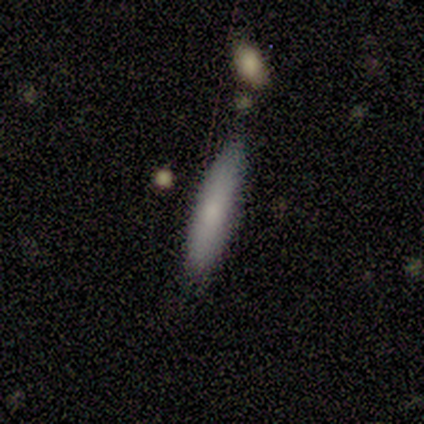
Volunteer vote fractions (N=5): Q: Smooth or featured?
A: smooth (60%); runner-up: featured or disk (20%)
Q: How rounded?
A: cigar-shaped (100%)
Q: Merging?
A: none (100%)